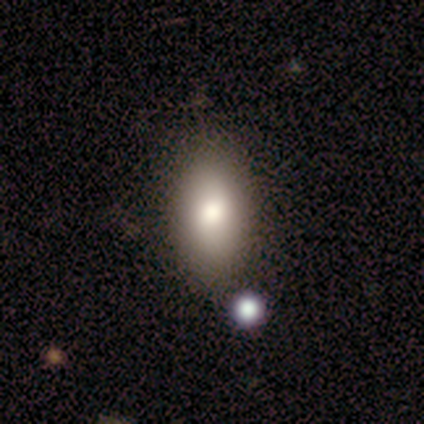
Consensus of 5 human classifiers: smooth_or_featured: smooth (p=1.00)
how_rounded: in between (p=1.00)
merging: none (p=0.60) [alt: minor disturbance p=0.40]